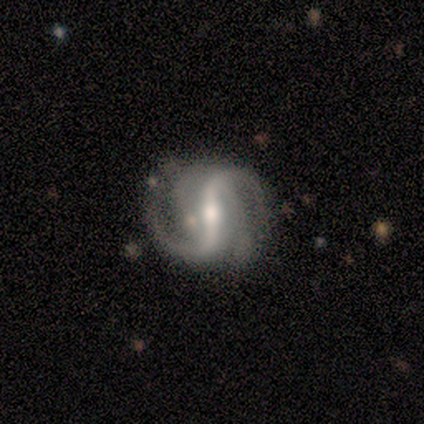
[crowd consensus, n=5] Smooth or featured: featured or disk — 100%
Edge-on disk: no — 100%
Bar: strong — 80% (weak — 20%)
Spiral arms: yes — 100%
Spiral winding: loose — 80% (medium — 20%)
Spiral arm count: 2 — 60% (3 — 20%)
Bulge size: moderate — 60% (large — 20%)
Merging: none — 100%